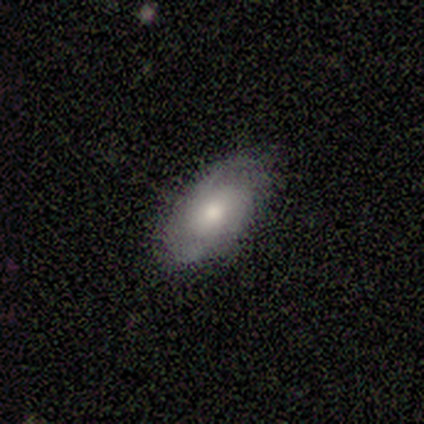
Smooth or featured: smooth — 60% (featured or disk — 40%)
How rounded: in between — 67% (cigar-shaped — 33%)
Merging: minor disturbance — 60% (none — 40%)